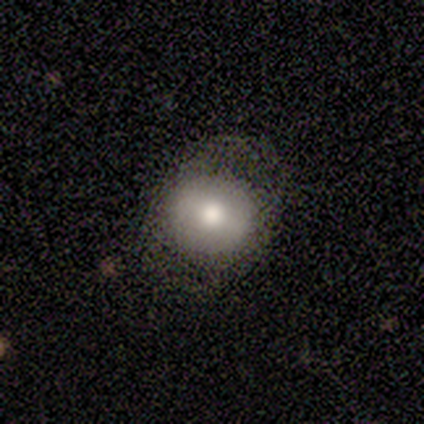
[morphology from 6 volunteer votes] smooth_or_featured: smooth (p=1.00)
how_rounded: round (p=0.83) [alt: in between p=0.17]
merging: none (p=0.67) [alt: minor disturbance p=0.33]